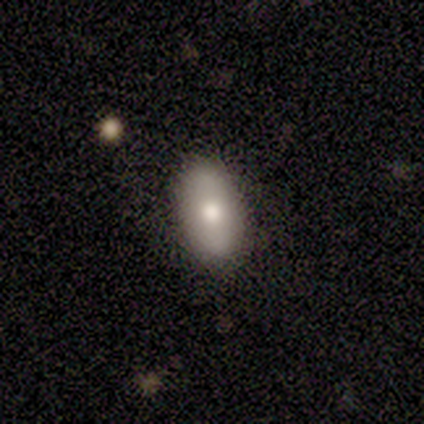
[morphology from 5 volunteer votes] Overall: smooth (100%). How rounded: in between (100%). Merging: none (100%).